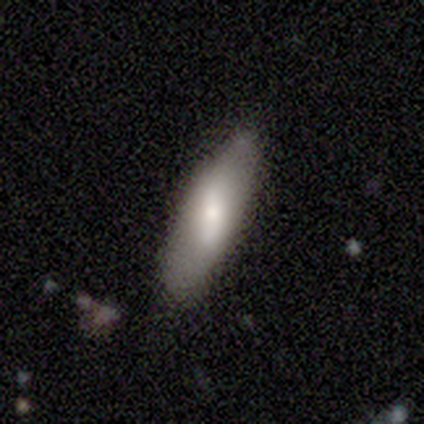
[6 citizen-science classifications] Smooth or featured: smooth — 83% (featured or disk — 17%)
How rounded: cigar-shaped — 60% (in between — 40%)
Merging: none — 67% (minor disturbance — 33%)